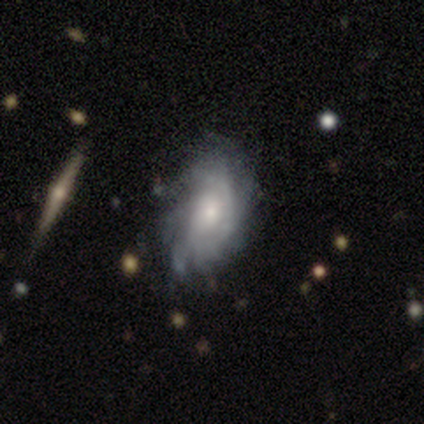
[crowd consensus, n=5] Smooth or featured? 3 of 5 (60%) said featured or disk. Edge-on disk? 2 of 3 (67%) said no. Bar? 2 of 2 (100%) said no. Spiral arms? 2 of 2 (100%) said yes. Spiral winding? 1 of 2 (50%, tied with medium) said tight. Spiral arm count? 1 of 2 (50%, tied with can't tell) said 4. Bulge size? 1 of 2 (50%, tied with small) said moderate. Merging? 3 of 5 (60%) said minor disturbance.